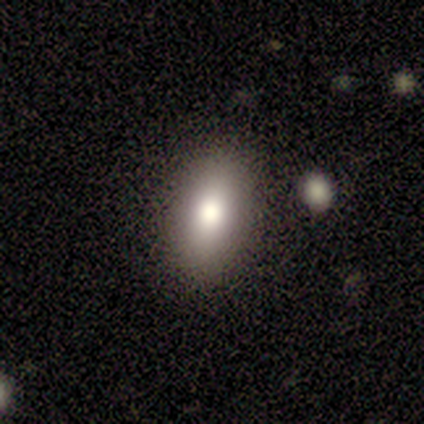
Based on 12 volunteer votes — smooth_or_featured: smooth (p=1.00)
how_rounded: in between (p=1.00)
merging: none (p=1.00)